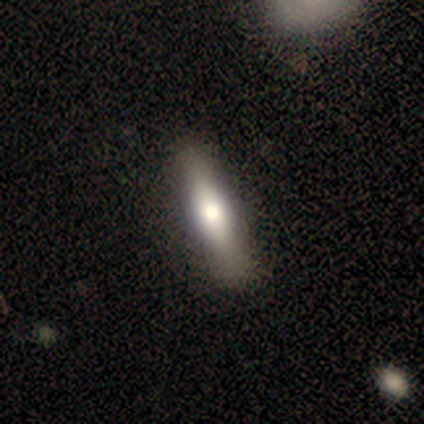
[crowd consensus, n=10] This is likely a smooth galaxy (60%). How rounded: clearly cigar-shaped (83%). Merging: clearly none (80%).